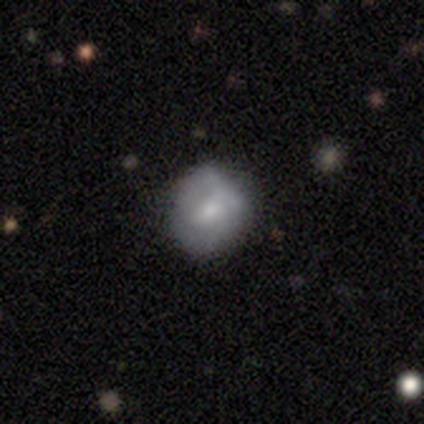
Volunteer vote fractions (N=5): Morphology: type=smooth (60%); roundness=round (100%); merging=none (60%).